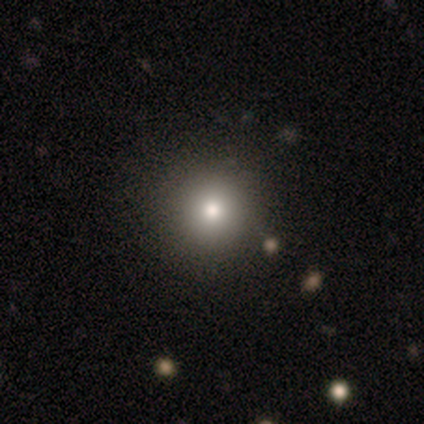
Volunteers were most divided on "merging": none: 75%, merger: 25%, minor disturbance: 0%, major disturbance: 0%. More confident: how rounded — round (100%); smooth or featured — smooth (80%).